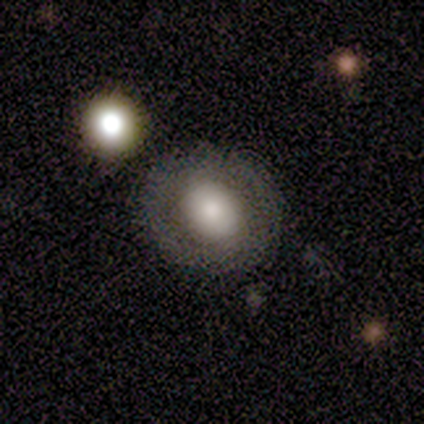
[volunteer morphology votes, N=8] Volunteers were most divided on "how rounded" (2-way tie): round: 50%, in between: 50%, cigar-shaped: 0%. More confident: merging — none (80%); smooth or featured — smooth (50%).